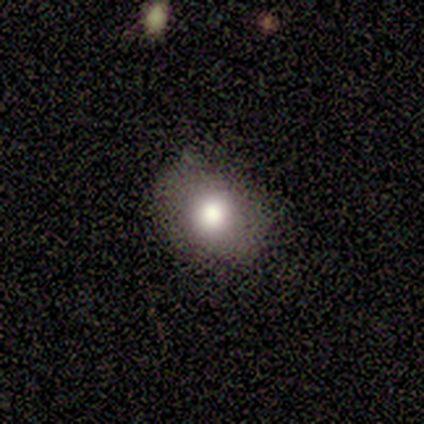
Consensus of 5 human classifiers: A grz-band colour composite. It shows a smooth galaxy with no disk features (80%) that is round (75%). Merging: none (60%).